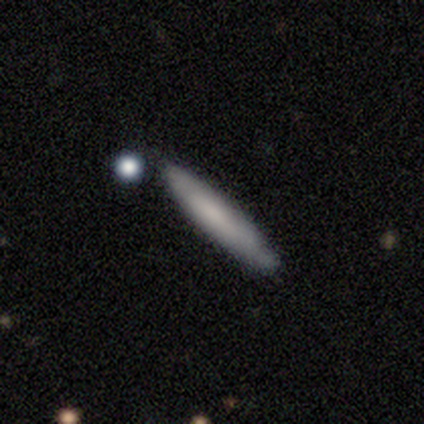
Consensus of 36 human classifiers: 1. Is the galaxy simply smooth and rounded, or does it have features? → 67% smooth, 28% featured or disk, 6% star or artifact.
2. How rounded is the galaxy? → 92% cigar-shaped, 4% round, 4% in between.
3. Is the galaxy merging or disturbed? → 74% none, 18% minor disturbance, 6% major disturbance, 3% merger.